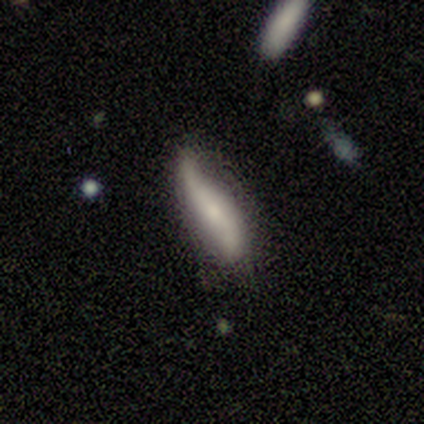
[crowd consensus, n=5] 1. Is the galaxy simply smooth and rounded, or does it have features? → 60% smooth, 40% featured or disk, 0% star or artifact.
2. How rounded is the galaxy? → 67% in between, 33% cigar-shaped, 0% round.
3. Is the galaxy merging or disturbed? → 40% none (tied), 40% major disturbance (tied), 20% minor disturbance, 0% merger.